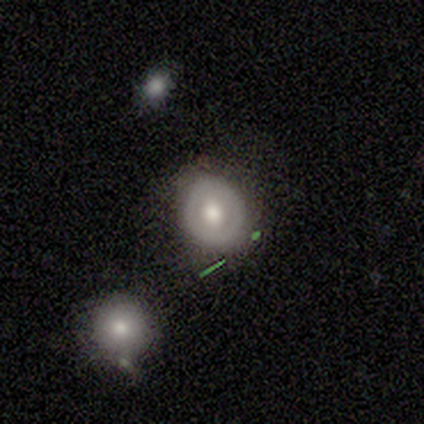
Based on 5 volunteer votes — Q: Smooth or featured?
A: featured or disk (80%); runner-up: smooth (20%)
Q: Edge-on disk?
A: no (100%)
Q: Bar?
A: no (100%)
Q: Spiral arms?
A: no (100%)
Q: Bulge size?
A: moderate (50%); runner-up: small (25%)
Q: Merging?
A: none (80%); runner-up: merger (20%)